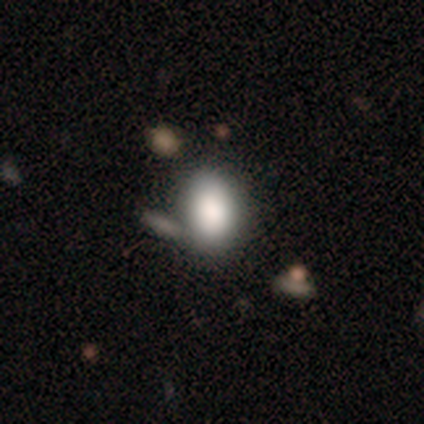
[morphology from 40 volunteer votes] Smooth or featured? smooth (82%)
How rounded? in between (70%)
Merging? none (66%)